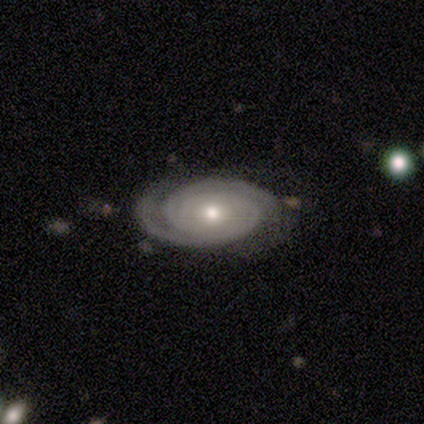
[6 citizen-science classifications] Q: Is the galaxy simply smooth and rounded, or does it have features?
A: featured or disk — 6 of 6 (100%).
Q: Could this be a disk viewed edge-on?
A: no — 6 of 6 (100%).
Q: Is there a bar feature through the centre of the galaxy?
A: no — 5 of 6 (83%).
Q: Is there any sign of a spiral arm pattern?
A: yes — 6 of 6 (100%).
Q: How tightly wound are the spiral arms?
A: tight — 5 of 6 (83%).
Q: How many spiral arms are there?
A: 2 — 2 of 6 (33%, tied with 4).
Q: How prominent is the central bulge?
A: moderate — 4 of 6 (67%).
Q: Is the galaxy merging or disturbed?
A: none — 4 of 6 (67%).